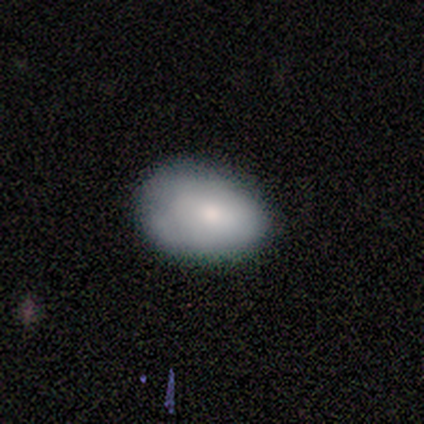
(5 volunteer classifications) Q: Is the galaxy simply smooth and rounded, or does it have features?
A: smooth — 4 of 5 (80%).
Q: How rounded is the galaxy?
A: in between — 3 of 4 (75%).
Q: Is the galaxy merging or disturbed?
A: none — 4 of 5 (80%).